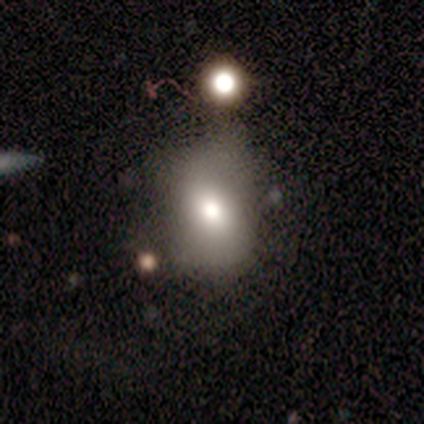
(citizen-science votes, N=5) Smooth or featured? 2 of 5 (40%, tied with star or artifact) said smooth. How rounded? 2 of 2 (100%) said in between. Merging? 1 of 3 (33%, tied with minor disturbance and merger) said none.